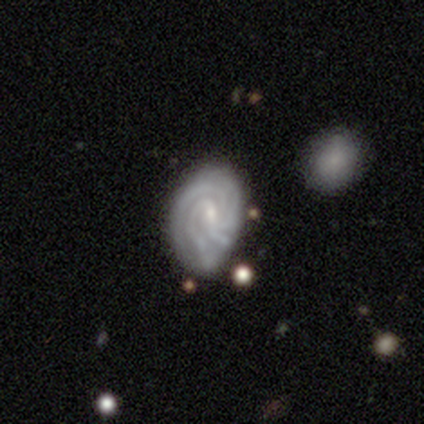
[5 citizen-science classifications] Smooth or featured? 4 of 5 (80%) said featured or disk. Edge-on disk? 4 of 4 (100%) said no. Bar? 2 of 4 (50%, tied with no) said weak. Spiral arms? 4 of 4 (100%) said yes. Spiral winding? 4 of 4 (100%) said tight. Spiral arm count? 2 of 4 (50%, tied with 4) said 3. Bulge size? 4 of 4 (100%) said small. Merging? 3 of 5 (60%) said none.